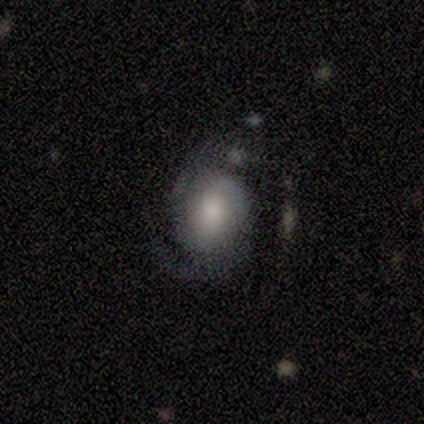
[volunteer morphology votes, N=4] featured or disk 75%, smooth 25%, star or artifact 0%. Down the decision tree: edge-on disk — no (100%); bar — no (100%); spiral arms — yes (67%); spiral arm count — 2 (100%); spiral winding — tight (50%, tied with medium); bulge size — dominant (33%, tied with large and moderate); merging — none (50%).